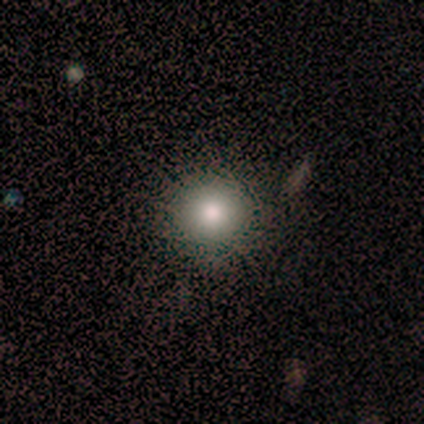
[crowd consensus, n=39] This is likely a smooth galaxy (77%). How rounded: clearly round (97%). Merging: clearly none (97%).